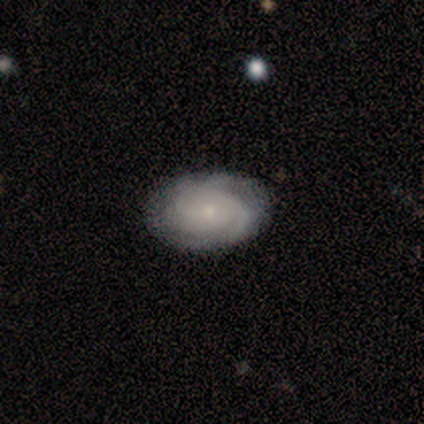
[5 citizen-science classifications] This appears to be a featured or disk galaxy (60%) with no bar (67%), 4 (67%) tight (100%) spiral arms (100%) and a moderate central bulge (67%). Merging: none (100%).